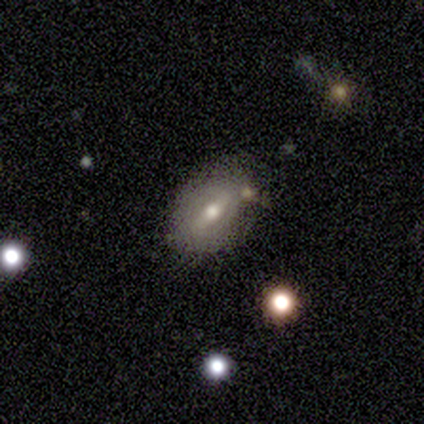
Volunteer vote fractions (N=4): This appears to be a featured or disk galaxy (75%) with a strong bar (67%), 2 (100%) medium (50%, tied with loose) spiral arms (67%) and a moderate central bulge (100%). Merging: none (50%, tied with minor disturbance).